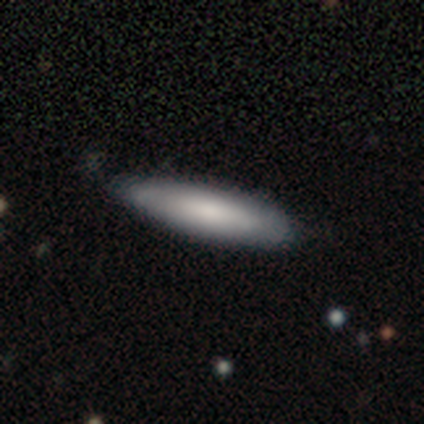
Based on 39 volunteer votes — Overall: smooth (79%). How rounded: cigar-shaped (71%). Merging: none (87%).